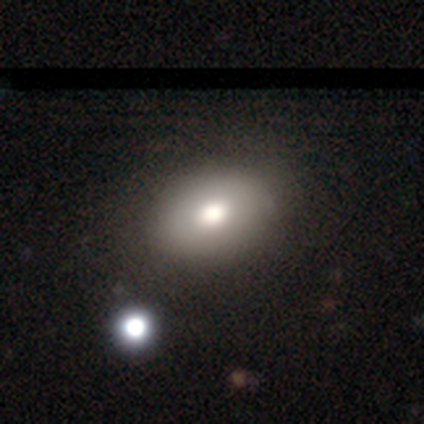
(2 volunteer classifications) Smooth or featured? 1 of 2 (50%, tied with star or artifact) said smooth. How rounded? 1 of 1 (100%) said cigar-shaped. Merging? 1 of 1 (100%) said none.